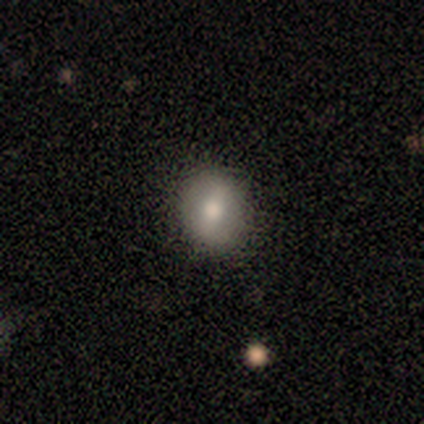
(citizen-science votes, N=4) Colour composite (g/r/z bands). It shows a smooth galaxy with no disk features (50%, tied with featured or disk) that is round (100%). Merging: none (100%).